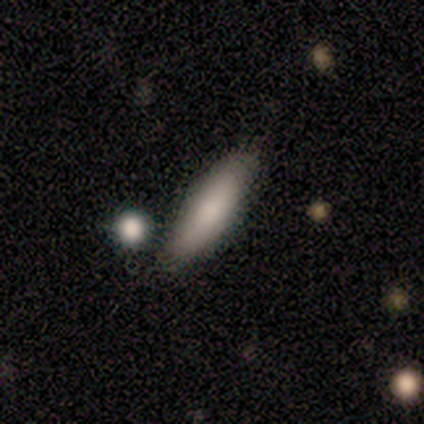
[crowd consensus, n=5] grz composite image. It shows a smooth galaxy with no disk features (80%) that is in between round and cigar-shaped (50%, tied with cigar-shaped). Merging: none (100%).